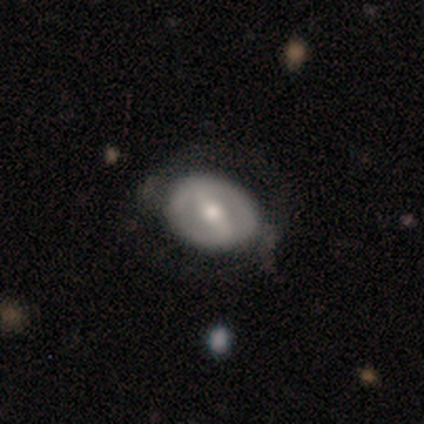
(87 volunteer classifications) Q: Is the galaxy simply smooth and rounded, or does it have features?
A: featured or disk — 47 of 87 (54%).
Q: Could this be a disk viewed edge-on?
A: no — 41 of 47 (87%).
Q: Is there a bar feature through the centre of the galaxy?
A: strong — 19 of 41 (46%, tied with weak).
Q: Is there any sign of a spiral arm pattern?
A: no — 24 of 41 (59%).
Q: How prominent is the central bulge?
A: moderate — 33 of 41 (80%).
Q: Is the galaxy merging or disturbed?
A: none — 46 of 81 (57%).